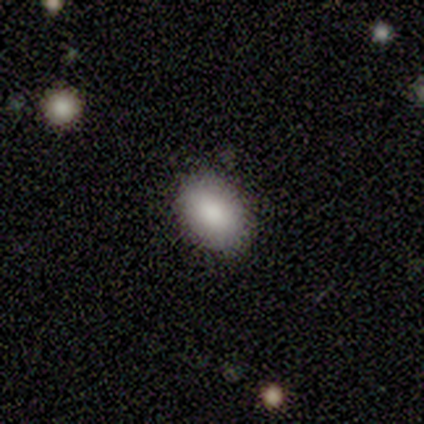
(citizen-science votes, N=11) smooth 100%, featured or disk 0%, star or artifact 0%. Down the decision tree: how rounded — in between (64%); merging — none (100%).